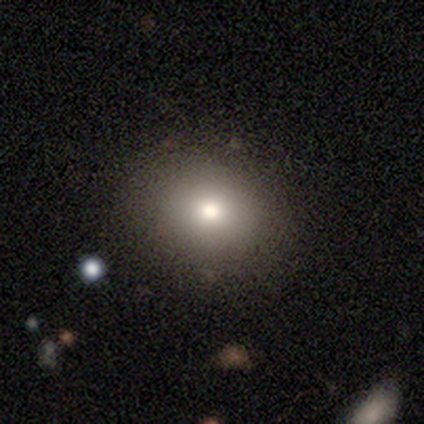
A smooth galaxy with no disk features (82%) that is round (65%).

Vote fractions:
- Smooth or featured? smooth: 82% / star or artifact: 12% / featured or disk: 6%
- How rounded? round: 65% / in between: 35% / cigar-shaped: 0%
- Merging? none: 54% / minor disturbance: 10% / merger: 1% / major disturbance: 0%